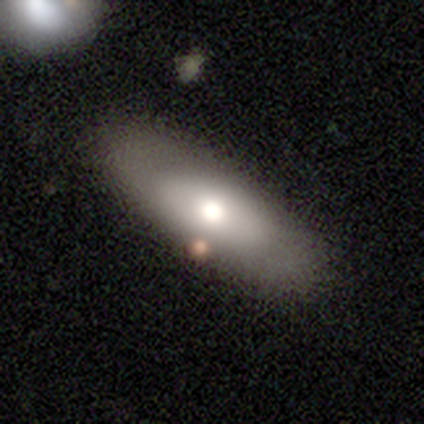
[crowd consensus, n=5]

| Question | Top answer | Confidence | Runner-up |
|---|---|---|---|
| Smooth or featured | smooth | 60% | featured or disk (20%) |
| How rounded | in between | 67% | cigar-shaped (33%) |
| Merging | none | 75% | merger (25%) |